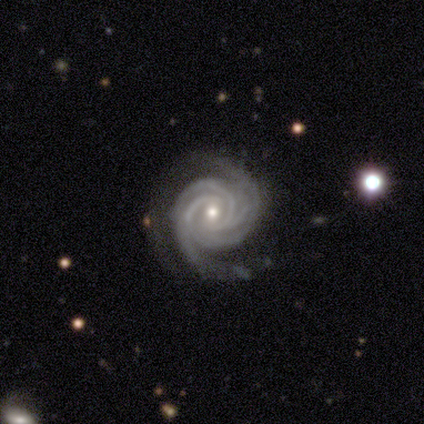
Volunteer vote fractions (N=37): Smooth or featured? featured or disk (92%)
Edge-on disk? no (100%)
Bar? no (59%)
Spiral arms? yes (100%)
Spiral winding? tight (88%)
Spiral arm count? 3 (29%, tied with 4)
Bulge size? moderate (50%, tied with small)
Merging? none (69%)